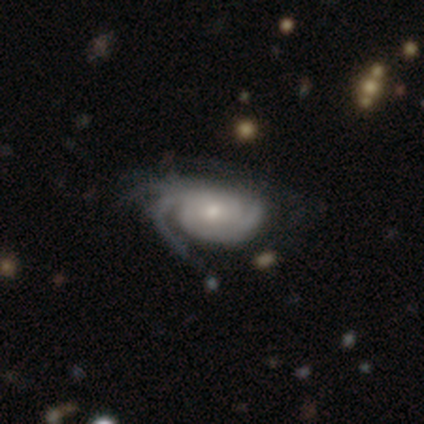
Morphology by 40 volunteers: smooth_or_featured: featured or disk (p=0.95) [alt: smooth p=0.03]
disk_edge_on: no (p=0.97) [alt: yes p=0.03]
bar: no (p=0.65) [alt: weak p=0.24]
has_spiral_arms: yes (p=1.00)
spiral_winding: tight (p=0.49) [alt: medium p=0.46]
spiral_arm_count: can't tell (p=0.41) [alt: 2 p=0.24]
bulge_size: moderate (p=0.49) [alt: small p=0.41]
merging: none (p=0.49) [alt: major disturbance p=0.15]